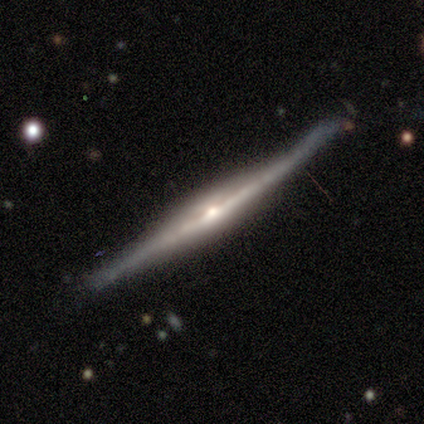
Morphology: type=featured or disk (100%); edge-on=yes (100%); edge-on bulge=rounded (83%); merging=minor disturbance (50%).